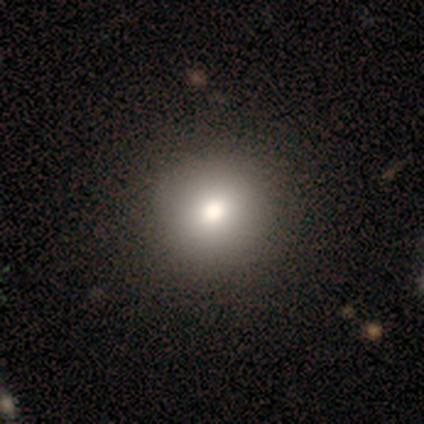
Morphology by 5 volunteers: Q: Smooth or featured?
A: smooth (80%); runner-up: featured or disk (20%)
Q: How rounded?
A: round (100%)
Q: Merging?
A: none (80%); runner-up: minor disturbance (20%)